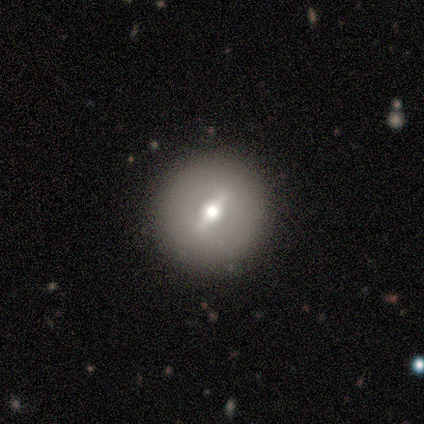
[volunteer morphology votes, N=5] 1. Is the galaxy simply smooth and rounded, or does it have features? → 80% featured or disk, 20% smooth, 0% star or artifact.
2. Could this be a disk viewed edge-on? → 75% no, 25% yes.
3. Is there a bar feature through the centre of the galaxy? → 33% strong (tied), 33% weak (tied), 33% no (tied).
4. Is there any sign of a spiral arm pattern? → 67% no, 33% yes.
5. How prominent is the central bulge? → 67% moderate, 33% small, 0% dominant, 0% large, 0% none.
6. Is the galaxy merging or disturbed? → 80% none, 20% minor disturbance, 0% major disturbance, 0% merger.